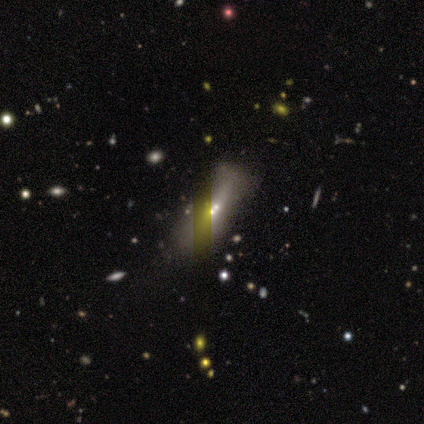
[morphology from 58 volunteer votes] A smooth galaxy with no disk features (34%, tied with featured or disk) that is in between round and cigar-shaped (60%). Merging: merger (42%).